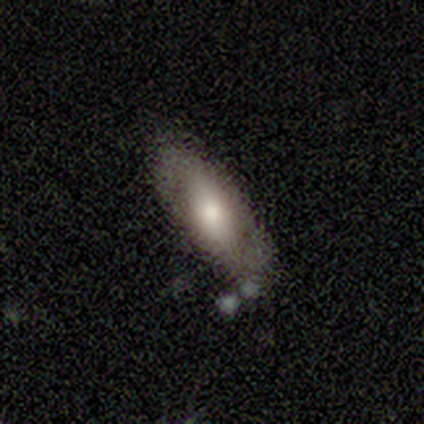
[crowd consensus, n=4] Volunteers were most divided on "merging" (2-way tie): none: 50%, minor disturbance: 50%, major disturbance: 0%, merger: 0%. More confident: how rounded — in between (100%); smooth or featured — smooth (75%).